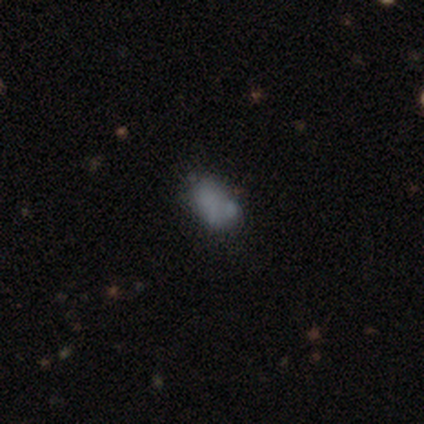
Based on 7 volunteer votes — smooth_or_featured: smooth (p=0.86) [alt: featured or disk p=0.14]
how_rounded: in between (p=1.00)
merging: none (p=0.57) [alt: merger p=0.29]